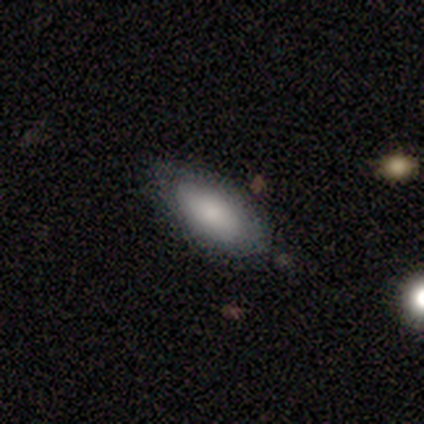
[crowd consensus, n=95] A smooth galaxy with no disk features (79%) that is in between round and cigar-shaped (92%).

Vote fractions:
- Smooth or featured? smooth: 79% / featured or disk: 18% / star or artifact: 3%
- How rounded? in between: 92% / cigar-shaped: 7% / round: 1%
- Merging? none: 82% / minor disturbance: 16% / major disturbance: 1% / merger: 1%